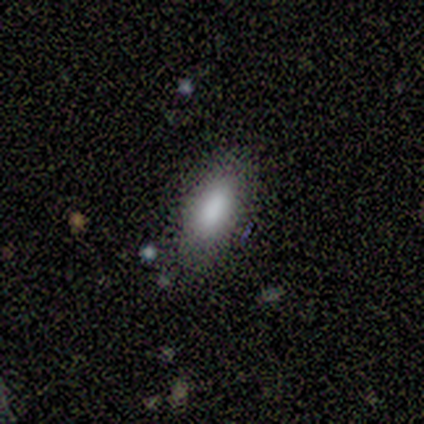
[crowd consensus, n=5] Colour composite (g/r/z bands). It shows a smooth galaxy with no disk features (80%) that is in between round and cigar-shaped (75%). Merging: none (75%).